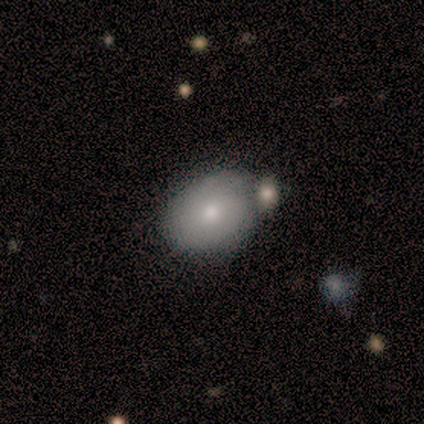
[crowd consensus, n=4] smooth 100%, featured or disk 0%, star or artifact 0%. Down the decision tree: how rounded — in between (100%); merging — minor disturbance (50%).